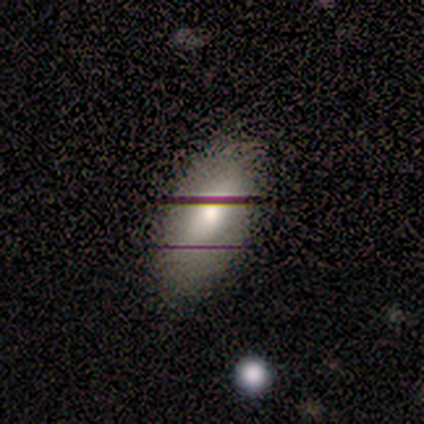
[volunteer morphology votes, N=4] A smooth galaxy with no disk features (50%, tied with featured or disk) that is in between round and cigar-shaped (100%). Merging: minor disturbance (50%).